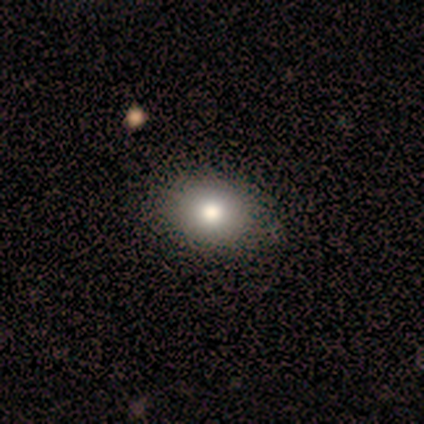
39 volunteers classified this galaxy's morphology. This is clearly a smooth galaxy (85%). How rounded: likely in between (67%). Merging: possibly none (59%).